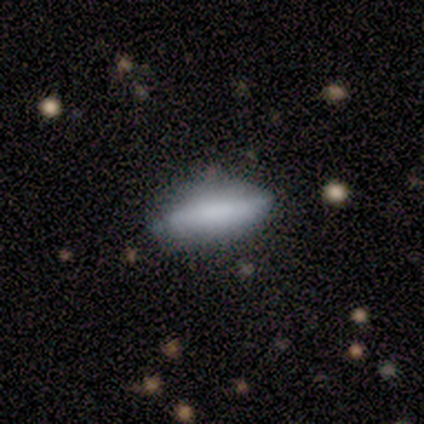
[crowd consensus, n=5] Volunteers were most divided on "smooth or featured" (2-way tie): smooth: 40%, featured or disk: 40%, star or artifact: 20%; "how rounded" (2-way tie): in between: 50%, cigar-shaped: 50%, round: 0%. More confident: merging — none (100%).